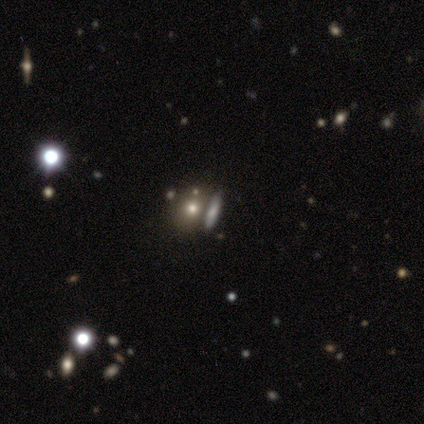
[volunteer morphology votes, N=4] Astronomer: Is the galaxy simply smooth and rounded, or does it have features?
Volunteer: smooth — 75%.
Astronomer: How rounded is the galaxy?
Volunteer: round — 33%, tied with in between and cigar-shaped at 33%.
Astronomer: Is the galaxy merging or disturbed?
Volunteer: none — 67%.